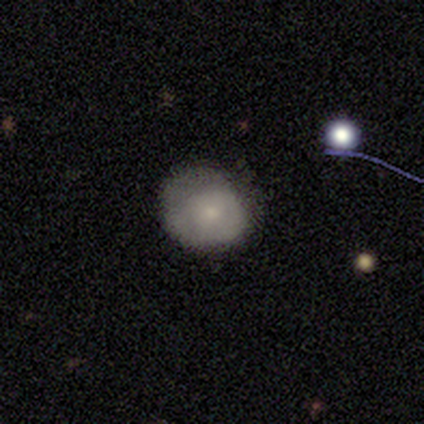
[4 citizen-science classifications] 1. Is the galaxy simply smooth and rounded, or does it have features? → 50% smooth, 25% featured or disk, 25% star or artifact.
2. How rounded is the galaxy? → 100% round, 0% in between, 0% cigar-shaped.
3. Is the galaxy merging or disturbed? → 67% minor disturbance, 33% major disturbance, 0% none, 0% merger.